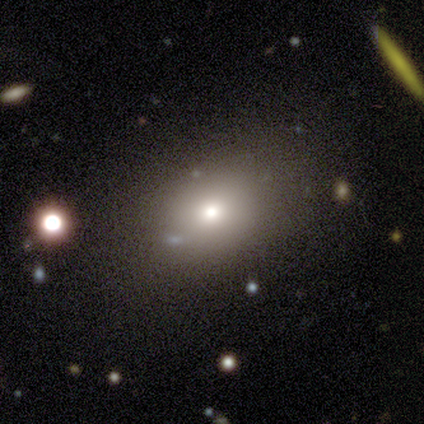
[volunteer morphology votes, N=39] Overall: smooth (72%). How rounded: in between (68%; round 32%). Merging: none (88%).